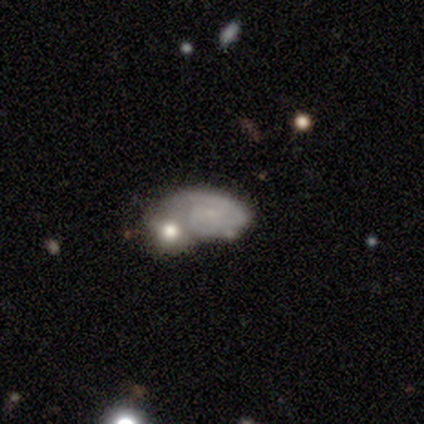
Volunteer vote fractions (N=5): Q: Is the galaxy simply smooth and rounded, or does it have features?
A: featured or disk — 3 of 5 (60%).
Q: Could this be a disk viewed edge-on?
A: no — 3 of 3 (100%).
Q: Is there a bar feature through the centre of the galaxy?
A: weak — 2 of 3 (67%).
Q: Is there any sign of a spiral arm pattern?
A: yes — 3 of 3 (100%).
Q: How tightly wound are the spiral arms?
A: tight — 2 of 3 (67%).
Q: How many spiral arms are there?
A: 1 — 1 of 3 (33%, tied with 2 and can't tell).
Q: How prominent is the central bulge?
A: none — 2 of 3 (67%).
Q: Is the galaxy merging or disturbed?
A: none — 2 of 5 (40%, tied with merger).